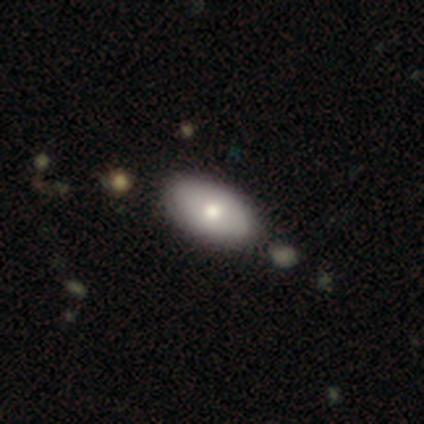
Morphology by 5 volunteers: Smooth or featured: smooth — 40% (tied with star or artifact — 40%)
How rounded: in between — 100%
Merging: none — 33% (tied with minor disturbance — 33%; merger — 33%)